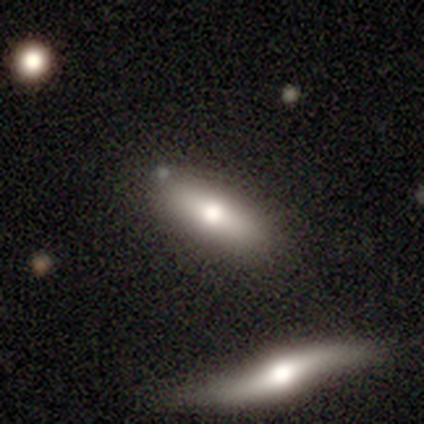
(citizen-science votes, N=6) This is likely a smooth galaxy (67%). How rounded: likely cigar-shaped (75%). Merging: clearly none (100%).